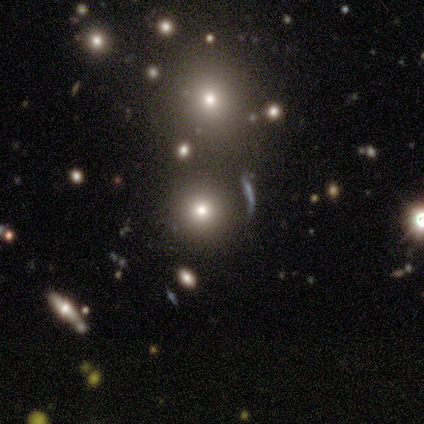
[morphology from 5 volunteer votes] Smooth or featured? smooth (100%)
How rounded? round (100%)
Merging? none (100%)